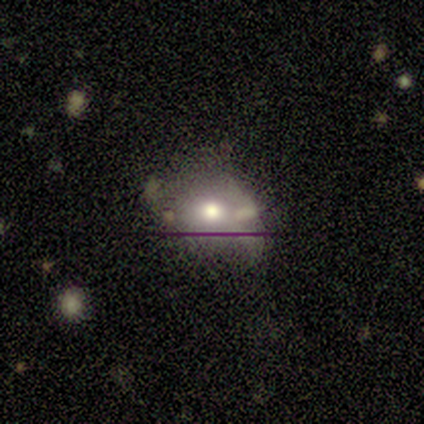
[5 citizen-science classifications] Overall: smooth (80%). How rounded: round (75%). Merging: none (40%, tied with minor disturbance).